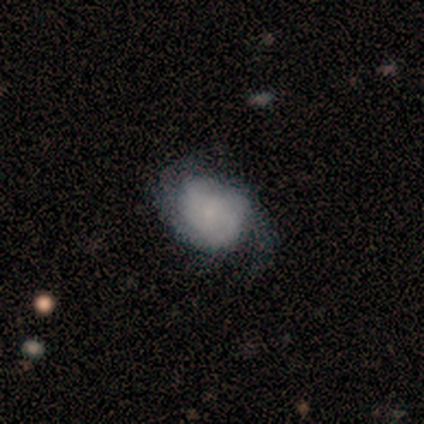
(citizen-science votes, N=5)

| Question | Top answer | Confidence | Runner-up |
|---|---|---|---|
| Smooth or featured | featured or disk | 80% | smooth (20%) |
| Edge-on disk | no | 100% | — |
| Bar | no | 75% | weak (25%) |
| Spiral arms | yes | 100% | — |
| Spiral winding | tight | 50% | tied: loose (50%) |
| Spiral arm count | can't tell | 75% | 2 (25%) |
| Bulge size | small | 75% | moderate (25%) |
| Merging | none | 40% | tied: major disturbance (40%) |